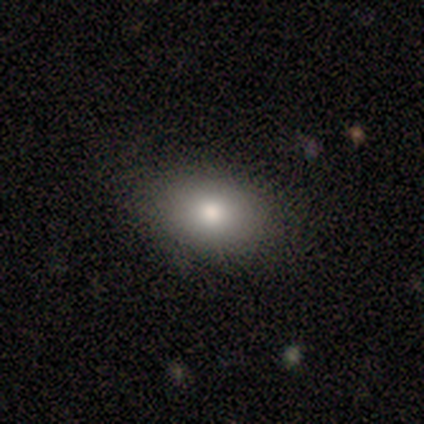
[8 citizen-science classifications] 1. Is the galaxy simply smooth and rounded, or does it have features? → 75% smooth, 25% star or artifact, 0% featured or disk.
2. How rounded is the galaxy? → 100% in between, 0% round, 0% cigar-shaped.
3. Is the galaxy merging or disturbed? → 67% none, 33% minor disturbance, 0% major disturbance, 0% merger.